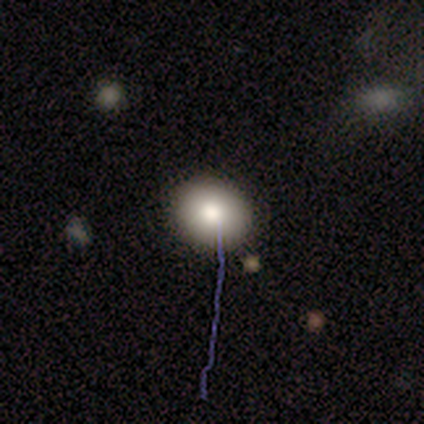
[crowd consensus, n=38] Volunteers were most divided on "how rounded": round: 72%, in between: 24%, cigar-shaped: 3%. More confident: smooth or featured — smooth (76%); merging — none (74%).